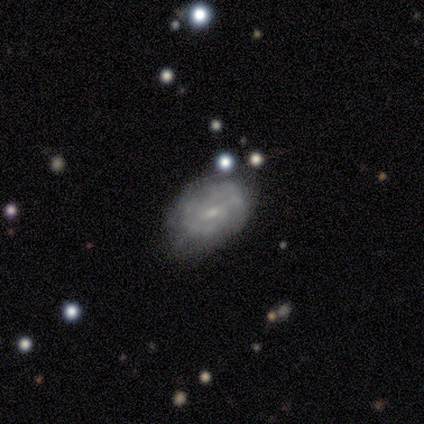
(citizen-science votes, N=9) Smooth or featured?
  - featured or disk: 78% *
  - smooth: 22%
  - star or artifact: 0%
Edge-on disk?
  - no: 100% *
  - yes: 0%
Bar?
  - weak: 71% *
  - no: 29%
  - strong: 0%
Spiral arms?
  - yes: 100% *
  - no: 0%
Spiral winding?
  - tight: 43% * (tied)
  - medium: 43% * (tied)
  - loose: 14%
Spiral arm count?
  - 2: 43% * (tied)
  - can't tell: 43% * (tied)
  - 3: 14%
  - 1: 0%
  - 4: 0%
  - more than 4: 0%
Bulge size?
  - small: 71% *
  - moderate: 29%
  - dominant: 0%
  - large: 0%
  - none: 0%
Merging?
  - none: 56% *
  - minor disturbance: 44%
  - major disturbance: 0%
  - merger: 0%